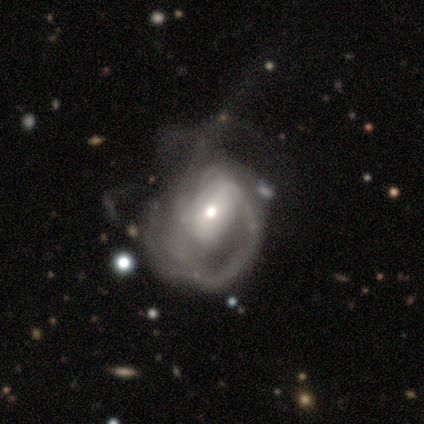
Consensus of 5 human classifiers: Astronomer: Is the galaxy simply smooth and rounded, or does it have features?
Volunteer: featured or disk — 60% (runner-up: smooth, 40%).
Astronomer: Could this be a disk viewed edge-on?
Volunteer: no — 100%.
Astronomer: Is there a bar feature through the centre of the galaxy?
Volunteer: no — 67%.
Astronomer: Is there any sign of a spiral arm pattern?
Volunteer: yes — 67%.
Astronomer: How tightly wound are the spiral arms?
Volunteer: medium — 50%, tied with loose at 50%.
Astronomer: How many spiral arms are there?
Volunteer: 2 — 50%, tied with can't tell at 50%.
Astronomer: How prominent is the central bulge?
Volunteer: small — 67%.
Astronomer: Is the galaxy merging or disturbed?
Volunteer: major disturbance — 60% (runner-up: minor disturbance, 40%).